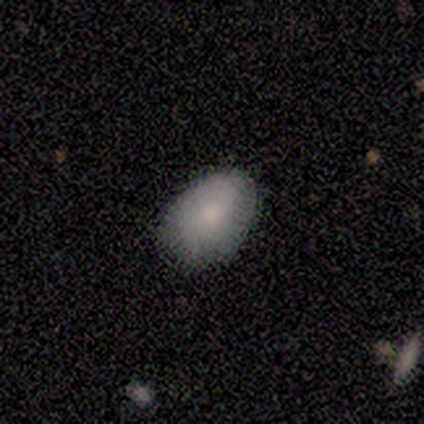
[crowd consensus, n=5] A smooth galaxy with no disk features (80%) that is in between round and cigar-shaped (100%).

Vote fractions:
- Smooth or featured? smooth: 80% / featured or disk: 20% / star or artifact: 0%
- How rounded? in between: 100% / round: 0% / cigar-shaped: 0%
- Merging? none: 60% / minor disturbance: 40% / major disturbance: 0% / merger: 0%